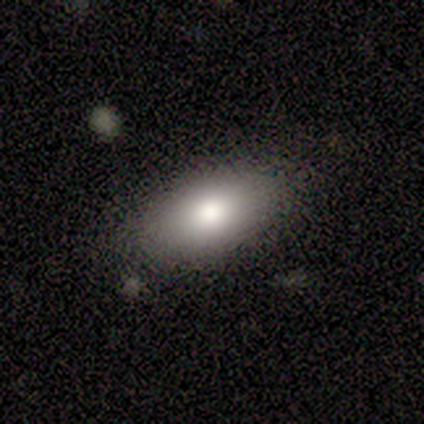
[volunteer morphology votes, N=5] This appears to be a smooth galaxy with no disk features (80%) that is in between round and cigar-shaped (75%). Merging: none (80%).